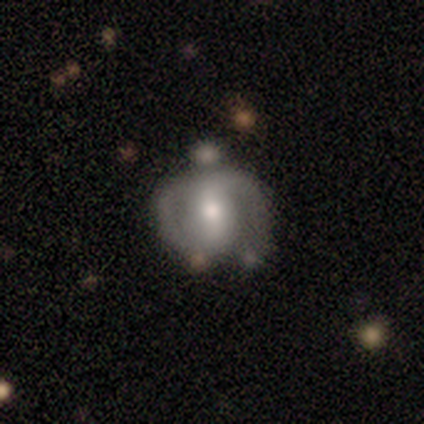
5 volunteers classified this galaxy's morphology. Q: Smooth or featured?
A: featured or disk (80%); runner-up: smooth (20%)
Q: Edge-on disk?
A: no (100%)
Q: Bar?
A: strong (50%); runner-up: weak (25%)
Q: Spiral arms?
A: yes (75%); runner-up: no (25%)
Q: Spiral winding?
A: medium (100%)
Q: Spiral arm count?
A: 2 (100%)
Q: Bulge size?
A: moderate (75%); runner-up: small (25%)
Q: Merging?
A: minor disturbance (60%); runner-up: none (40%)